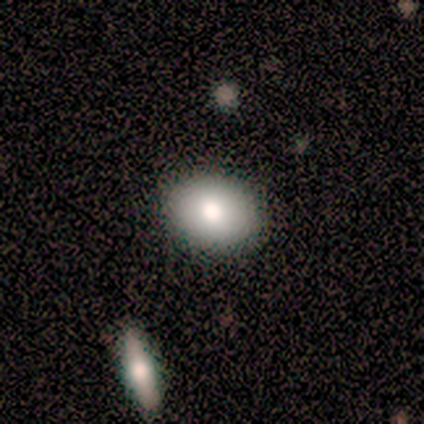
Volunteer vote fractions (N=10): Smooth or featured? smooth (100%)
How rounded? in between (90%)
Merging? none (80%)